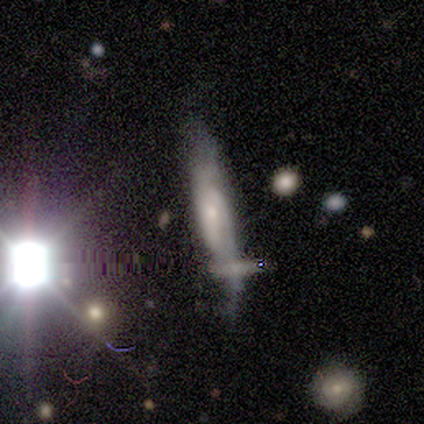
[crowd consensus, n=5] This appears to be a featured or disk galaxy (100%) with no bar (75%), 2 (100%) medium (67%) spiral arms (75%) and a small central bulge (75%). Merging: minor disturbance (60%).